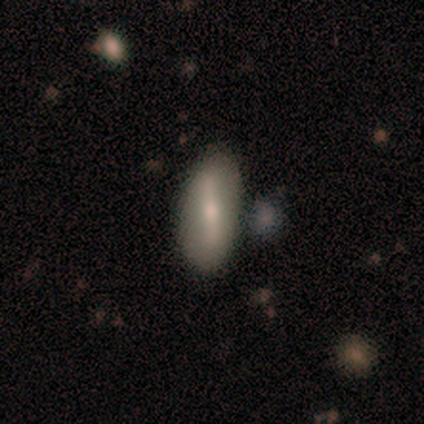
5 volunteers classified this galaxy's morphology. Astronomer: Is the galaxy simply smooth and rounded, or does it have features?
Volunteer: featured or disk — 80%.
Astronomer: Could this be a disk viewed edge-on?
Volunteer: no — 75%.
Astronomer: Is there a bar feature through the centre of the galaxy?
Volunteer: strong — 67%.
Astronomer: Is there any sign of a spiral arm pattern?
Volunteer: no — 67%.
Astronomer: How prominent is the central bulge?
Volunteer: small — 67%.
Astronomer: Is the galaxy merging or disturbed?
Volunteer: none — 60%.